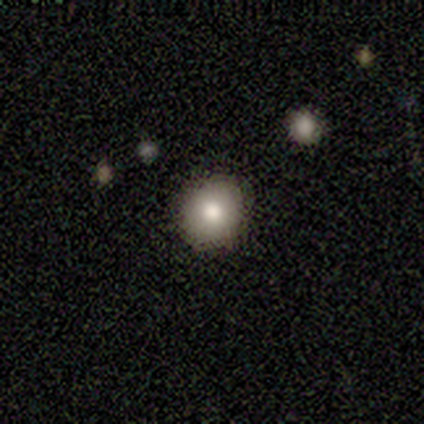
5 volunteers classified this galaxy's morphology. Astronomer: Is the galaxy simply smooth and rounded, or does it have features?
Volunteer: smooth — 100%.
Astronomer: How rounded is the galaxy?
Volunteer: round — 100%.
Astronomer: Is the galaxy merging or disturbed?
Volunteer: none — 80%.